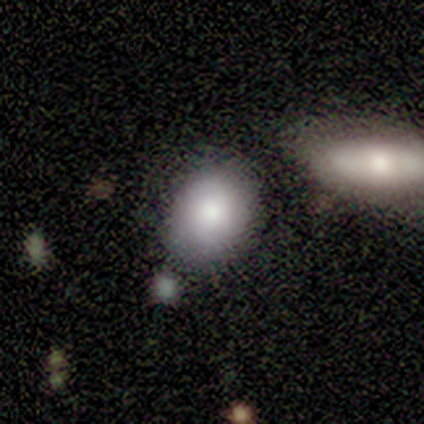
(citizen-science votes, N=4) This appears to be a smooth galaxy with no disk features (75%) that is in between round and cigar-shaped (67%). Merging: minor disturbance (75%).